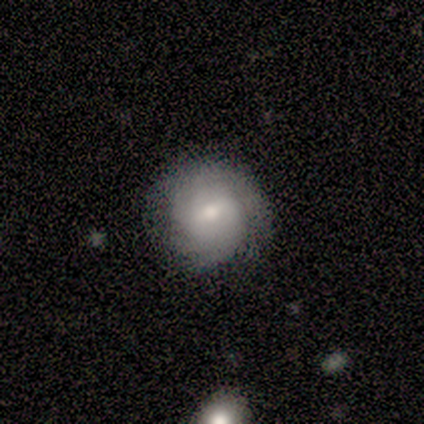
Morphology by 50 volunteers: Smooth or featured? 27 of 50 (54%) said featured or disk. Edge-on disk? 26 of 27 (96%) said no. Bar? 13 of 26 (50%) said weak. Spiral arms? 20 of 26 (77%) said yes. Spiral winding? 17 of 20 (85%) said tight. Spiral arm count? 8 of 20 (40%) said can't tell. Bulge size? 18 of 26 (69%) said moderate. Merging? 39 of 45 (87%) said none.